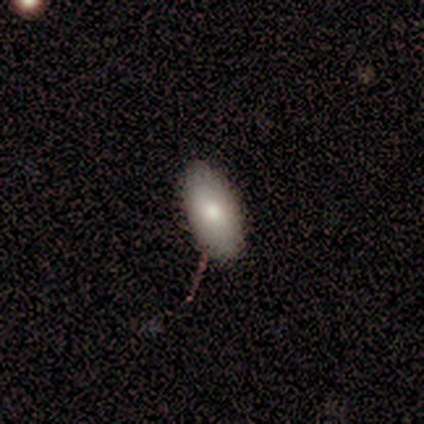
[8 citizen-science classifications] Volunteers were most divided on "smooth or featured": smooth: 88%, featured or disk: 12%, star or artifact: 0%. More confident: how rounded — in between (100%); merging — none (88%).